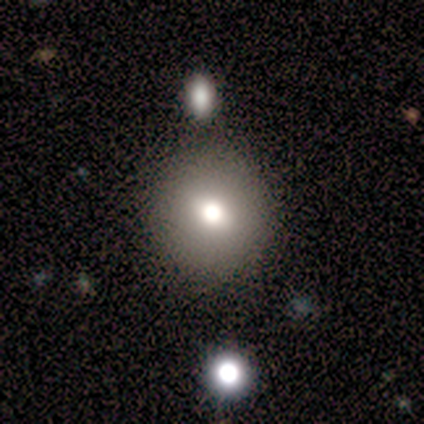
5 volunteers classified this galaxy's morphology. A smooth galaxy with no disk features (60%) that is round (100%).

Vote fractions:
- Smooth or featured? smooth: 60% / featured or disk: 20% / star or artifact: 20%
- How rounded? round: 100% / in between: 0% / cigar-shaped: 0%
- Merging? none: 100% / minor disturbance: 0% / major disturbance: 0% / merger: 0%